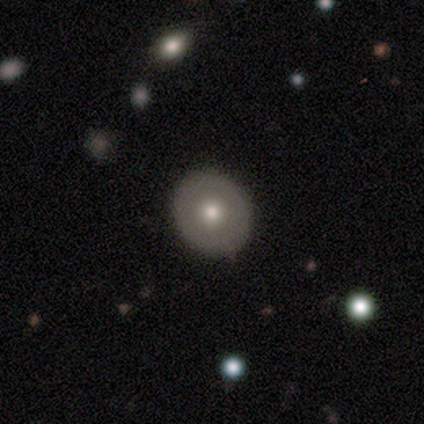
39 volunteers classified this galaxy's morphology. Smooth or featured? 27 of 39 (69%) said smooth. How rounded? 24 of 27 (89%) said round. Merging? 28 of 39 (72%) said none.